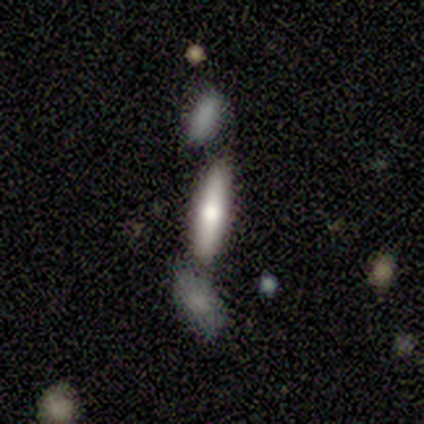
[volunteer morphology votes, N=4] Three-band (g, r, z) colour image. It shows a smooth galaxy with no disk features (75%) that is cigar-shaped (100%). Merging: none (50%).